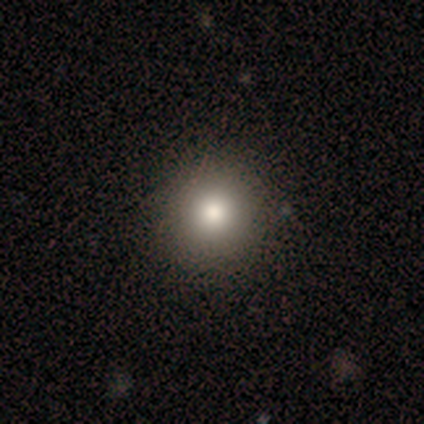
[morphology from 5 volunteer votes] smooth_or_featured: smooth (p=0.80) [alt: star or artifact p=0.20]
how_rounded: round (p=1.00)
merging: none (p=1.00)